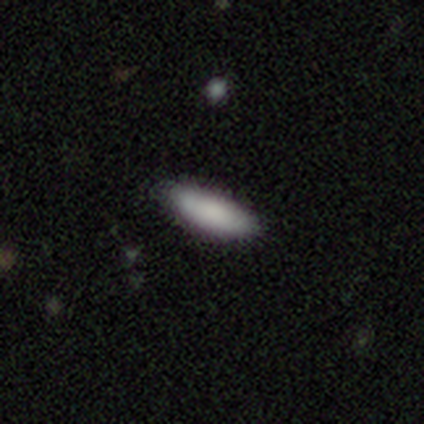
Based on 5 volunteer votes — Smooth or featured?
  - smooth: 100% *
  - featured or disk: 0%
  - star or artifact: 0%
How rounded?
  - in between: 60% *
  - cigar-shaped: 40%
  - round: 0%
Merging?
  - none: 100% *
  - minor disturbance: 0%
  - major disturbance: 0%
  - merger: 0%